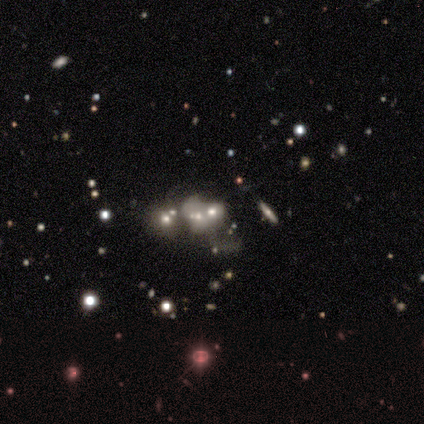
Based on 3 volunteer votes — Q: Smooth or featured?
A: smooth (33%); tied with: featured or disk (33%); star or artifact (33%)
Q: How rounded?
A: in between (100%)
Q: Merging?
A: minor disturbance (50%); tied with: merger (50%)